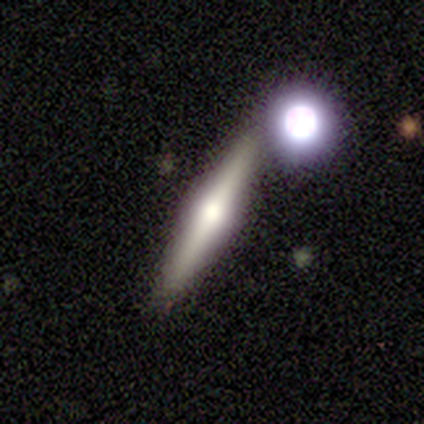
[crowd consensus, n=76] Morphology: type=featured or disk (74%); edge-on=yes (98%); edge-on bulge=rounded (89%); merging=none (74%).